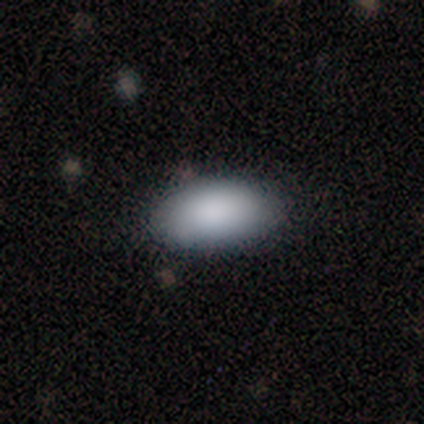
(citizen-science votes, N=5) Q: Smooth or featured?
A: smooth (100%)
Q: How rounded?
A: in between (100%)
Q: Merging?
A: none (60%); runner-up: minor disturbance (40%)